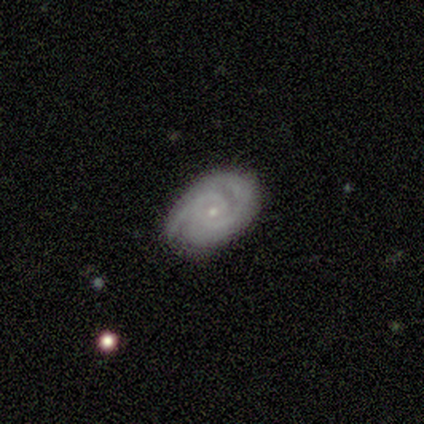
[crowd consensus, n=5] Q: Smooth or featured?
A: featured or disk (100%)
Q: Edge-on disk?
A: no (100%)
Q: Bar?
A: no (100%)
Q: Spiral arms?
A: yes (80%); runner-up: no (20%)
Q: Spiral winding?
A: tight (50%); runner-up: medium (25%)
Q: Spiral arm count?
A: 2 (100%)
Q: Bulge size?
A: small (100%)
Q: Merging?
A: none (100%)